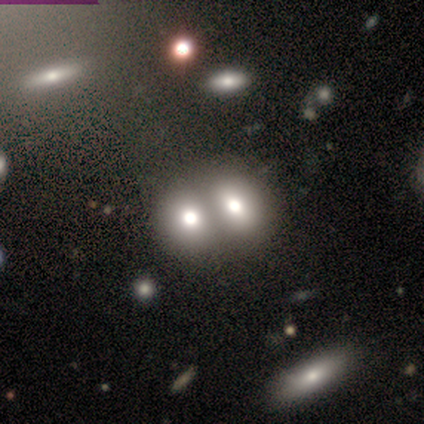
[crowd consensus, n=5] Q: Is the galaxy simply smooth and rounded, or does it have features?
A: smooth — 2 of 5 (40%, tied with featured or disk).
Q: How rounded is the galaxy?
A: round — 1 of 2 (50%, tied with in between).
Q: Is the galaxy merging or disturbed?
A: merger — 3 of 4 (75%).